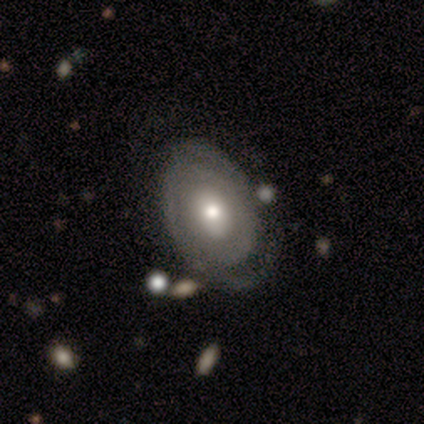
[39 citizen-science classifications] featured or disk 87%, smooth 13%, star or artifact 0%. Down the decision tree: edge-on disk — no (91%); bar — no (74%); spiral arms — yes (90%); spiral arm count — 2 (50%); spiral winding — tight (57%); bulge size — moderate (74%); merging — none (67%).